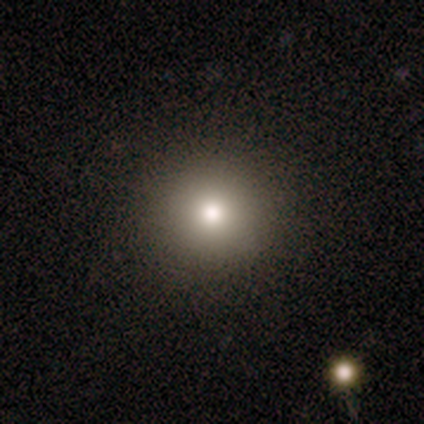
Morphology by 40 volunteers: Overall: smooth (82%). How rounded: round (97%). Merging: none (92%).